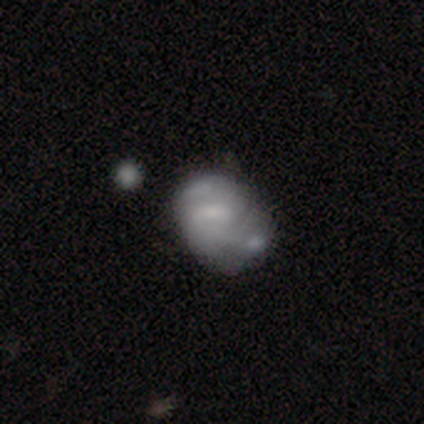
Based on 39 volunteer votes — smooth_or_featured: featured or disk (p=0.64) [alt: smooth p=0.31]
disk_edge_on: no (p=0.96) [alt: yes p=0.04]
bar: no (p=0.46) [alt: weak p=0.33]
has_spiral_arms: yes (p=0.62) [alt: no p=0.38]
spiral_winding: medium (p=0.60) [alt: tight p=0.20]
spiral_arm_count: 2 (p=0.60) [alt: can't tell p=0.20]
bulge_size: small (p=0.42) [alt: moderate p=0.38]
merging: merger (p=0.30) [alt: minor disturbance p=0.24]